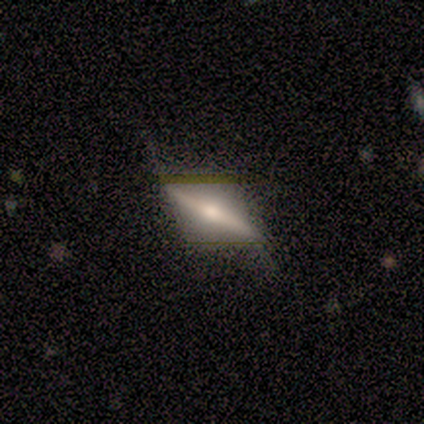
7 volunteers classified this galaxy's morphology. A featured or disk galaxy (71%) viewed edge-on (100%) with a rounded central bulge (100%).

Vote fractions:
- Smooth or featured? featured or disk: 71% / smooth: 14% / star or artifact: 14%
- Edge-on disk? yes: 100% / no: 0%
- Edge-on bulge? rounded: 100% / boxy: 0% / none: 0%
- Merging? none: 100% / minor disturbance: 0% / major disturbance: 0% / merger: 0%